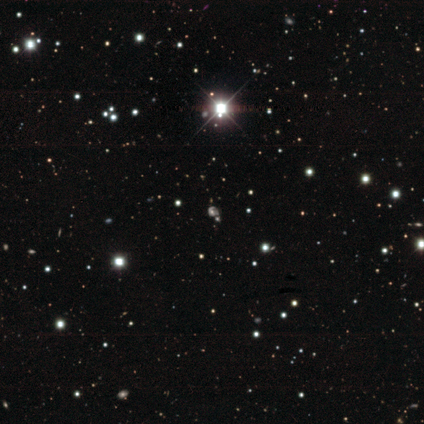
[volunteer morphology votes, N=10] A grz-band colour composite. It shows a star or artifact, not a galaxy (80%).